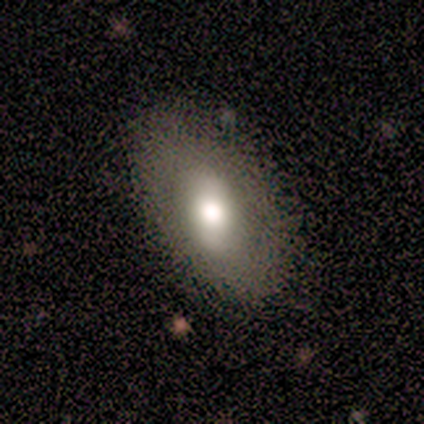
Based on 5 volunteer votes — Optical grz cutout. It shows a featured or disk galaxy (80%) with a strong bar (50%, tied with weak), no spiral arms (75%) and a moderate central bulge (100%). Merging: none (100%).